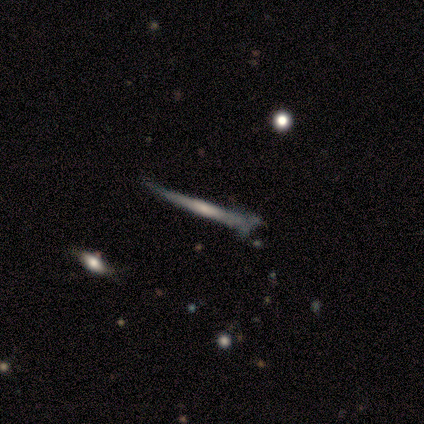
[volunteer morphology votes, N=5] Q: Smooth or featured?
A: featured or disk (100%)
Q: Edge-on disk?
A: yes (100%)
Q: Edge-on bulge?
A: none (40%); tied with: rounded (40%)
Q: Merging?
A: none (40%); tied with: minor disturbance (40%)